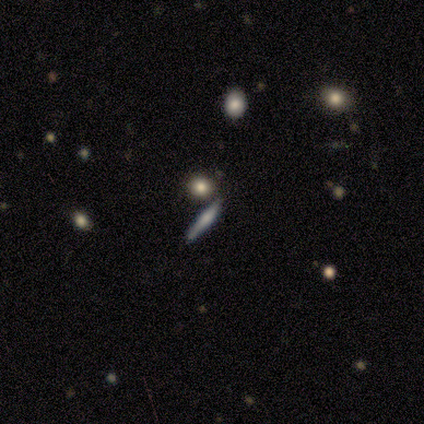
Q: Smooth or featured?
A: featured or disk (60%); runner-up: smooth (40%)
Q: Edge-on disk?
A: yes (100%)
Q: Edge-on bulge?
A: rounded (100%)
Q: Merging?
A: none (60%); runner-up: merger (40%)